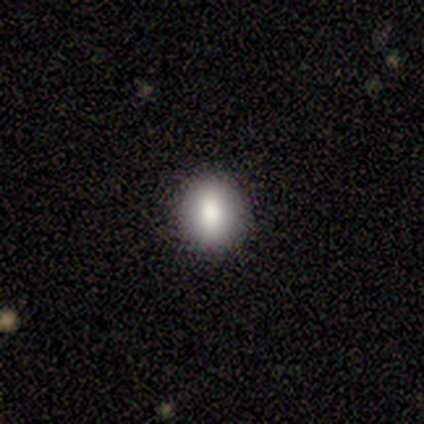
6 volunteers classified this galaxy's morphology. This appears to be a smooth galaxy with no disk features (67%) that is round (75%). Merging: none (100%).